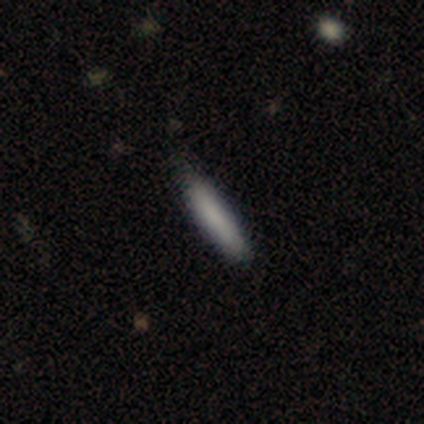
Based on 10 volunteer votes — A smooth galaxy with no disk features (70%) that is cigar-shaped (100%). Merging: none (62%).